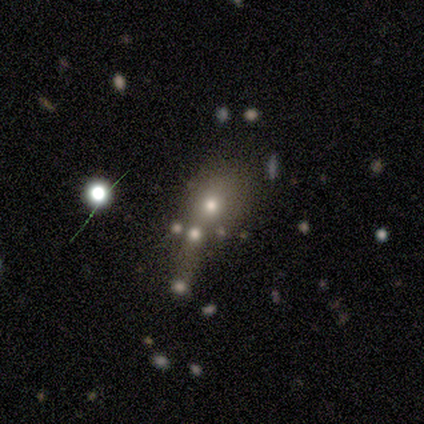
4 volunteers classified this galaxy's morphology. Smooth or featured?
  - featured or disk: 75% *
  - star or artifact: 25%
  - smooth: 0%
Edge-on disk?
  - no: 100% *
  - yes: 0%
Bar?
  - no: 100% *
  - strong: 0%
  - weak: 0%
Spiral arms?
  - no: 100% *
  - yes: 0%
Bulge size?
  - moderate: 33% * (tied)
  - small: 33% * (tied)
  - none: 33% * (tied)
  - dominant: 0%
  - large: 0%
Merging?
  - none: 33% * (tied)
  - major disturbance: 33% * (tied)
  - merger: 33% * (tied)
  - minor disturbance: 0%